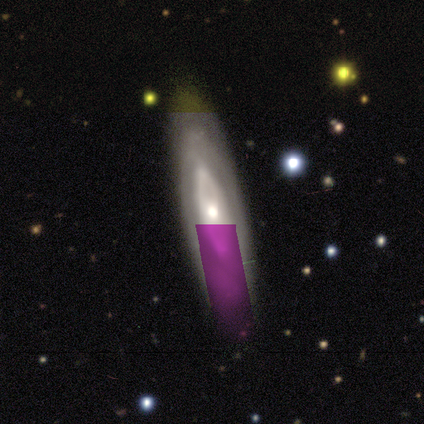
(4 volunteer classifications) This appears to be a featured or disk galaxy (100%) viewed edge-on (50%, tied with no) with no central bulge (50%, tied with rounded). Merging: none (100%).